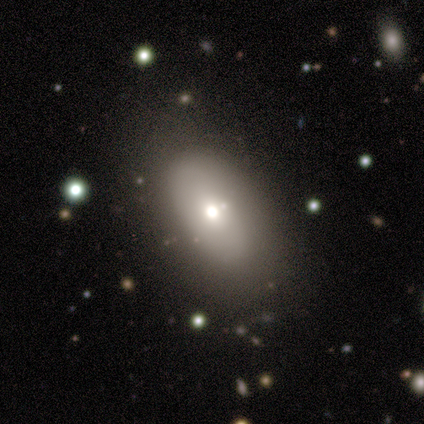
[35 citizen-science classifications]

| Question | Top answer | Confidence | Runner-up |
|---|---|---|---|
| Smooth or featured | smooth | 63% | featured or disk (23%) |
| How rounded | in between | 95% | round (5%) |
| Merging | none | 67% | minor disturbance (27%) |